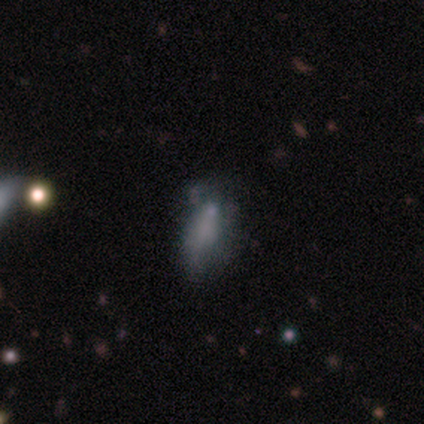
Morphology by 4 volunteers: Q: Smooth or featured?
A: star or artifact (75%); runner-up: smooth (25%)